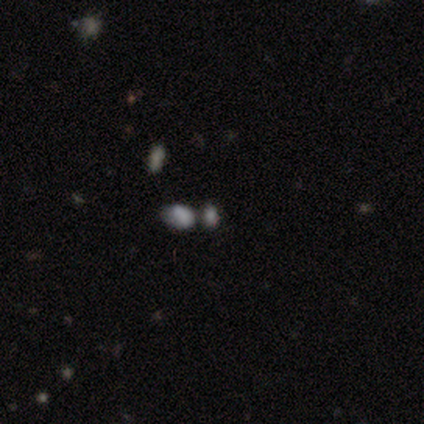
Smooth or featured? smooth (60%)
How rounded? in between (67%)
Merging? none (50%, tied with merger)